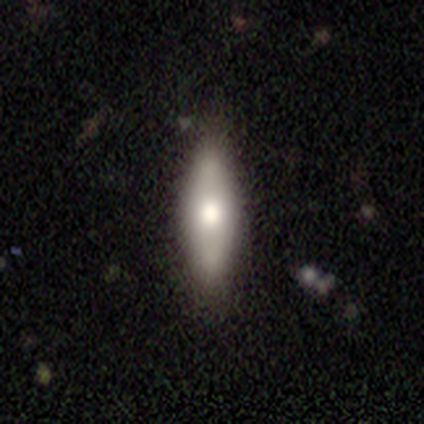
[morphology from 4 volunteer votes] Smooth or featured? smooth (50%, tied with featured or disk)
How rounded? in between (100%)
Merging? none (75%)